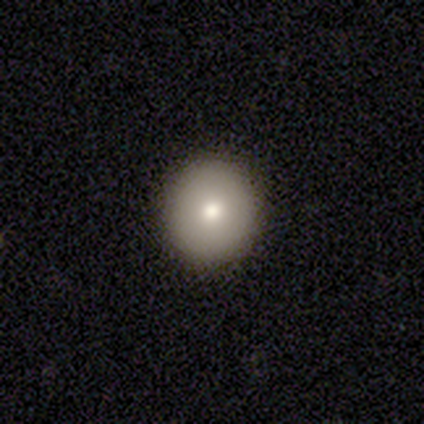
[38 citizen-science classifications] Smooth or featured: smooth — 84% (featured or disk — 11%)
How rounded: round — 100%
Merging: none — 94% (minor disturbance — 6%)